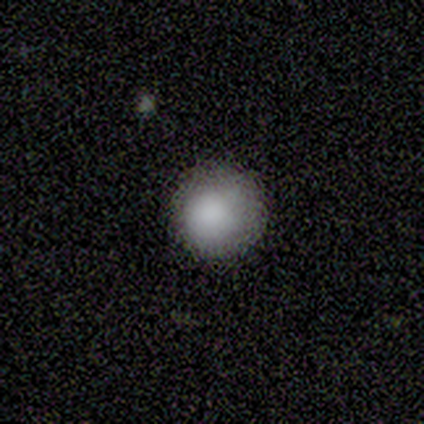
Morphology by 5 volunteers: A smooth galaxy with no disk features (100%) that is round (60%).

Vote fractions:
- Smooth or featured? smooth: 100% / featured or disk: 0% / star or artifact: 0%
- How rounded? round: 60% / in between: 40% / cigar-shaped: 0%
- Merging? none: 60% / minor disturbance: 40% / major disturbance: 0% / merger: 0%